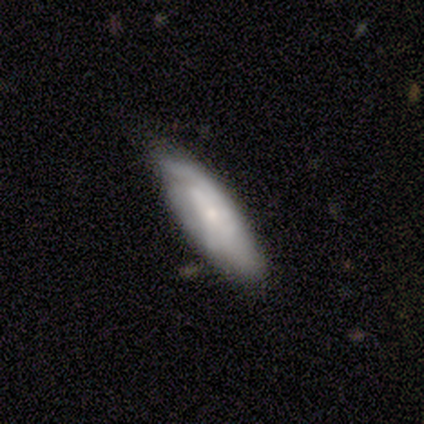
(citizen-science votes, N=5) A smooth galaxy with no disk features (80%) that is in between round and cigar-shaped (50%, tied with cigar-shaped).

Vote fractions:
- Smooth or featured? smooth: 80% / featured or disk: 20% / star or artifact: 0%
- How rounded? in between: 50% (tied) / cigar-shaped: 50% (tied) / round: 0%
- Merging? none: 60% / minor disturbance: 20% / merger: 20% / major disturbance: 0%